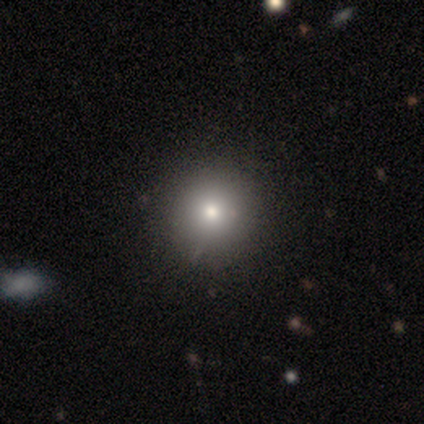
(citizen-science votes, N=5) Smooth or featured: smooth — 80% (star or artifact — 20%)
How rounded: round — 100%
Merging: none — 100%